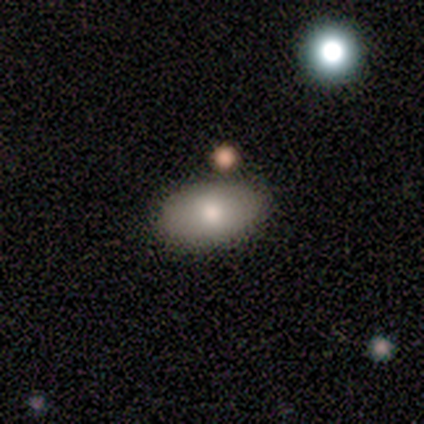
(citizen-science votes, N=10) A smooth galaxy with no disk features (70%) that is in between round and cigar-shaped (100%).

Vote fractions:
- Smooth or featured? smooth: 70% / star or artifact: 20% / featured or disk: 10%
- How rounded? in between: 100% / round: 0% / cigar-shaped: 0%
- Merging? none: 100% / minor disturbance: 0% / major disturbance: 0% / merger: 0%